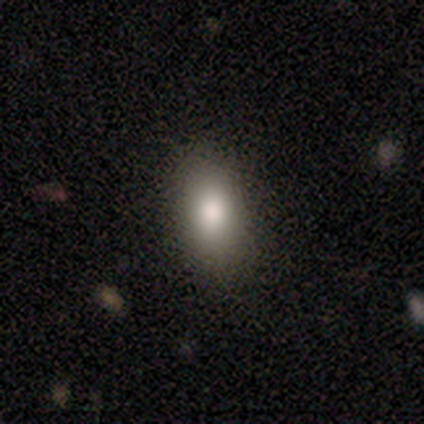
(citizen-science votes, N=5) Morphology: type=smooth (80%); roundness=in between (100%); merging=none (75%).